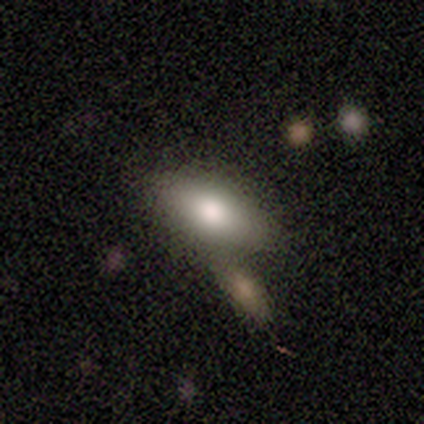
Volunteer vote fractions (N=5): A smooth galaxy with no disk features (80%) that is in between round and cigar-shaped (100%).

Vote fractions:
- Smooth or featured? smooth: 80% / featured or disk: 20% / star or artifact: 0%
- How rounded? in between: 100% / round: 0% / cigar-shaped: 0%
- Merging? none: 80% / merger: 20% / minor disturbance: 0% / major disturbance: 0%